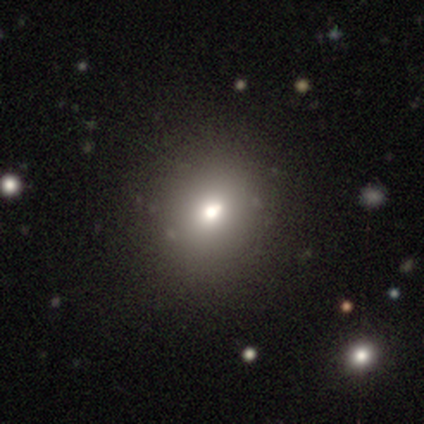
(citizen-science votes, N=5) Smooth or featured?
  - smooth: 80% *
  - featured or disk: 20%
  - star or artifact: 0%
How rounded?
  - round: 75% *
  - in between: 25%
  - cigar-shaped: 0%
Merging?
  - none: 100% *
  - minor disturbance: 0%
  - major disturbance: 0%
  - merger: 0%